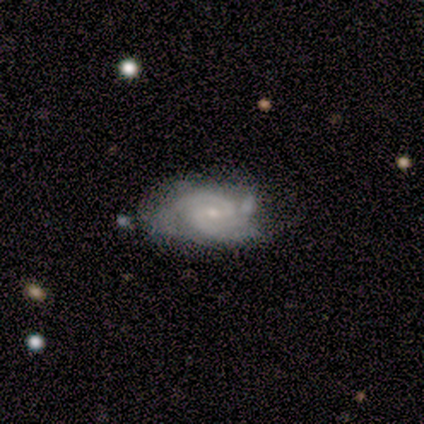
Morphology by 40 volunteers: This is clearly a featured or disk galaxy (80%). It is clearly not viewed edge-on (97%). Bar: likely weak (61%). Spiral arm pattern: clearly yes (87%). Spiral arm count: likely 2 (70%). Spiral winding: possibly tight (52%). Central bulge: likely small (71%). Merging: marginally none (41%).